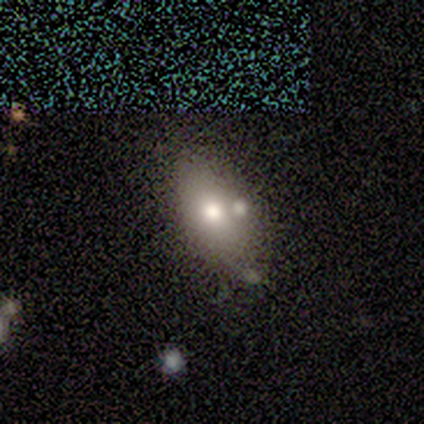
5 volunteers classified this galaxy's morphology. Volunteers were most divided on "merging": none: 60%, merger: 40%, minor disturbance: 0%, major disturbance: 0%. More confident: how rounded — in between (100%); smooth or featured — smooth (80%).